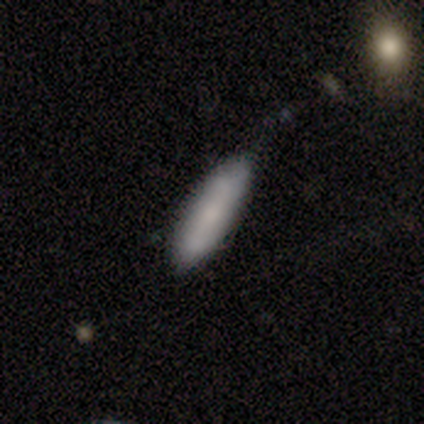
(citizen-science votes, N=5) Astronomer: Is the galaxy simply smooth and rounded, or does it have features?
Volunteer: smooth — 80%.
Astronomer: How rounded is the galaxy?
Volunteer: in between — 50%, tied with cigar-shaped at 50%.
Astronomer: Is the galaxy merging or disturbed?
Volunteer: none — 60% (runner-up: minor disturbance, 40%).